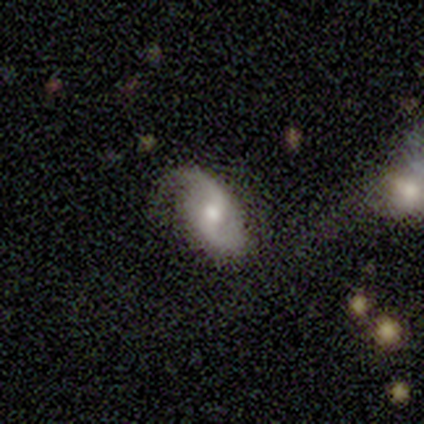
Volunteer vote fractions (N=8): Smooth or featured?
  - featured or disk: 100% *
  - smooth: 0%
  - star or artifact: 0%
Edge-on disk?
  - no: 100% *
  - yes: 0%
Bar?
  - weak: 50% *
  - no: 38%
  - strong: 12%
Spiral arms?
  - yes: 88% *
  - no: 12%
Spiral winding?
  - medium: 71% *
  - loose: 29%
  - tight: 0%
Spiral arm count?
  - 2: 86% *
  - can't tell: 14%
  - 1: 0%
  - 3: 0%
  - 4: 0%
  - more than 4: 0%
Bulge size?
  - moderate: 75% *
  - small: 25%
  - dominant: 0%
  - large: 0%
  - none: 0%
Merging?
  - none: 88% *
  - minor disturbance: 12%
  - major disturbance: 0%
  - merger: 0%